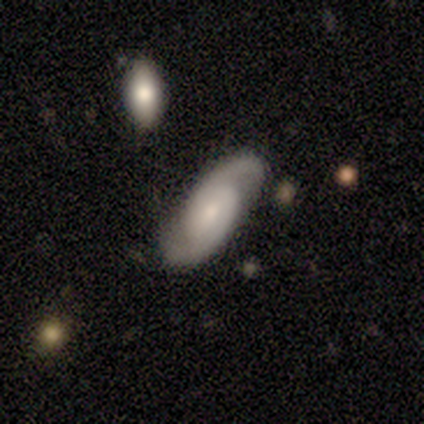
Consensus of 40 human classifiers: Smooth or featured?
  - featured or disk: 82% *
  - smooth: 15%
  - star or artifact: 2%
Edge-on disk?
  - no: 97% *
  - yes: 3%
Bar?
  - no: 56% *
  - weak: 28%
  - strong: 16%
Spiral arms?
  - yes: 97% *
  - no: 3%
Spiral winding?
  - medium: 35% * (tied)
  - loose: 35% * (tied)
  - tight: 29%
Spiral arm count?
  - 2: 97% *
  - can't tell: 3%
  - 1: 0%
  - 3: 0%
  - 4: 0%
  - more than 4: 0%
Bulge size?
  - small: 56% *
  - moderate: 31%
  - none: 9%
  - large: 3%
  - dominant: 0%
Merging?
  - none: 85% *
  - minor disturbance: 8%
  - merger: 5%
  - major disturbance: 3%